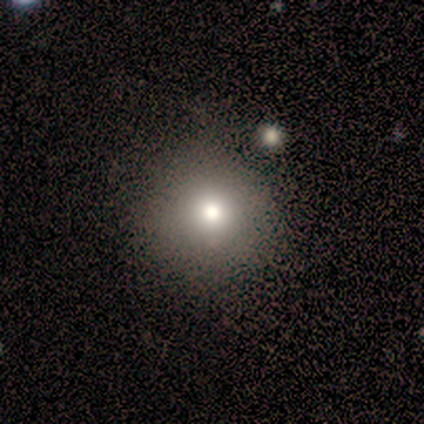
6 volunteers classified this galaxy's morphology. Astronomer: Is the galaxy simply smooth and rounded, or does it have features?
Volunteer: smooth — 100%.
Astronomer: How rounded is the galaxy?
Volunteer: round — 100%.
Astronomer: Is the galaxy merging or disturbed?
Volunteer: none — 100%.